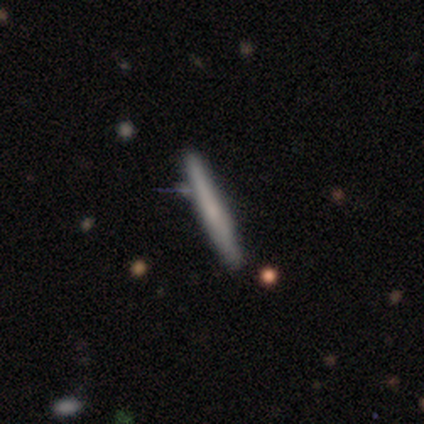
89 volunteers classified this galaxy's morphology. A smooth galaxy with no disk features (57%) that is cigar-shaped (100%). Merging: none (71%).